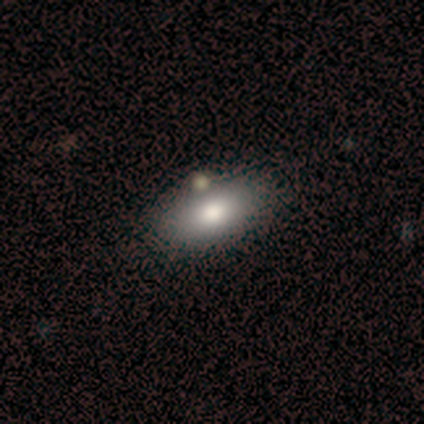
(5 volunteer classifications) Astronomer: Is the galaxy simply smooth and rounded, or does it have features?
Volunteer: smooth — 60%.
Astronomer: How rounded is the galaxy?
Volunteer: in between — 67%.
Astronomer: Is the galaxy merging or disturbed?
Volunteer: none — 50%.